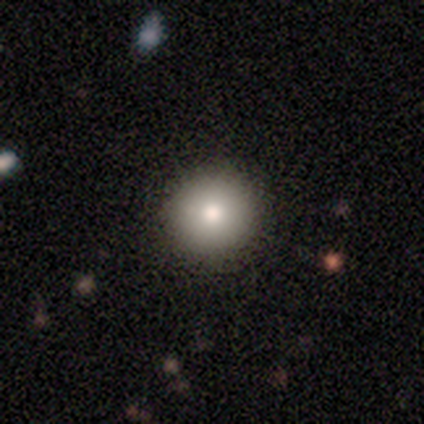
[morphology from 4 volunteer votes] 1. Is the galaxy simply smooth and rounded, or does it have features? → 75% smooth, 25% featured or disk, 0% star or artifact.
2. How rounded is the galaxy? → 100% round, 0% in between, 0% cigar-shaped.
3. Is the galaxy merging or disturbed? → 100% none, 0% minor disturbance, 0% major disturbance, 0% merger.